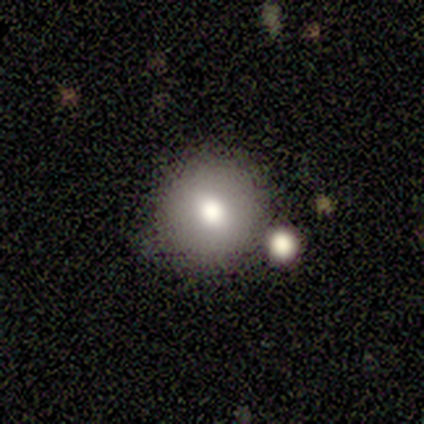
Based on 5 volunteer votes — This appears to be a smooth galaxy with no disk features (60%) that is round (100%). Merging: none (60%).